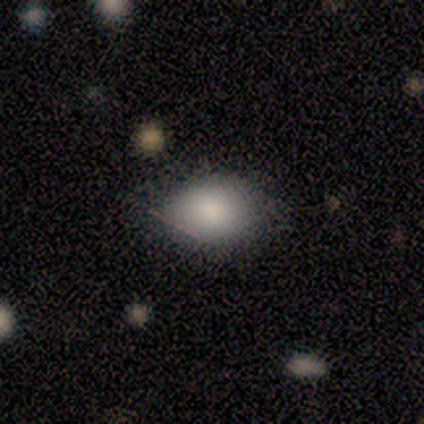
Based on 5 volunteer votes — Volunteers were most divided on "how rounded": in between: 75%, round: 25%, cigar-shaped: 0%. More confident: merging — none (100%); smooth or featured — smooth (80%).